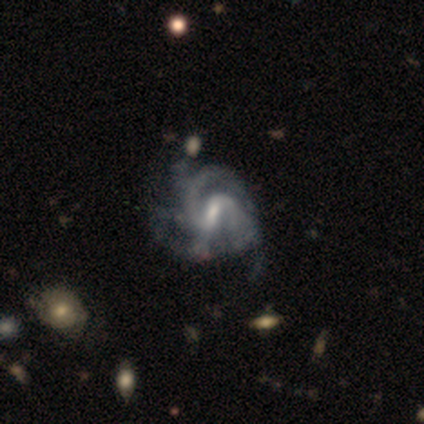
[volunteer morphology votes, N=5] smooth-or-featured: featured or disk: 100% | smooth: 0% | star or artifact: 0%
  disk-edge-on: no: 100% | yes: 0%
    bar: strong: 100% | weak: 0% | no: 0%
    has-spiral-arms: yes: 100% | no: 0%
      spiral-winding: medium: 80% | tight: 20% | loose: 0%
      spiral-arm-count: 4: 40% | 2: 20% | 3: 20% | more than 4: 20% | 1: 0% | can't tell: 0%
    bulge-size: small: 40% | large: 20% | moderate: 20% | none: 20% | dominant: 0%
  merging: major disturbance: 60% | none: 20% | minor disturbance: 20% | merger: 0%